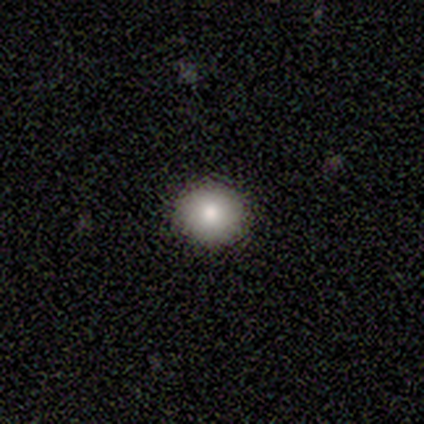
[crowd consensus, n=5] This is clearly a smooth galaxy (100%). How rounded: clearly round (80%). Merging: clearly none (100%).